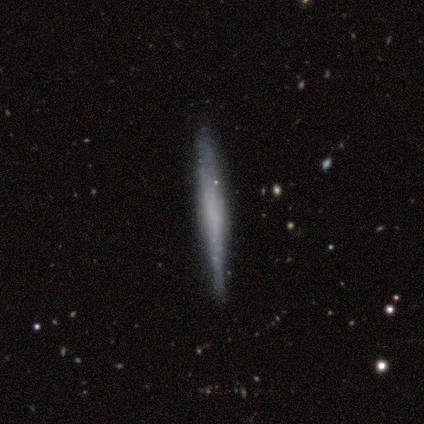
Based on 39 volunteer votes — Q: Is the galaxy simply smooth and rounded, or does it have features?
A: featured or disk — 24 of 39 (62%).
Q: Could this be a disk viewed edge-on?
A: yes — 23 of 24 (96%).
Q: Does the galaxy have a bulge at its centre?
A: none — 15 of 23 (65%).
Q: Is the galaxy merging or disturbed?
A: none — 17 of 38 (45%).